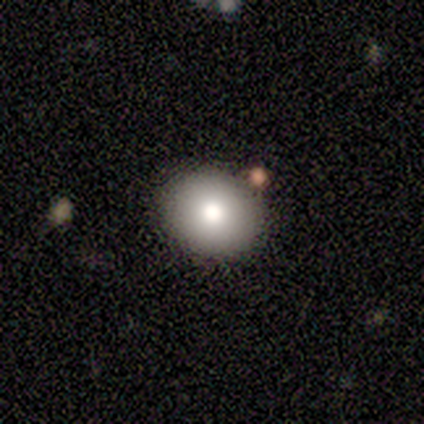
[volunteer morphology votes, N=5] type=smooth (100%); roundness=in between (60%); merging=none (100%).